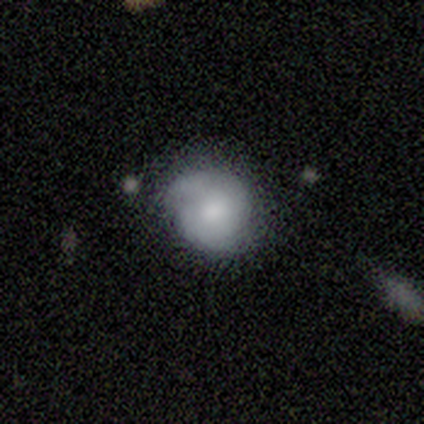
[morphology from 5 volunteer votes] Volunteers were most divided on "how rounded": round: 75%, in between: 25%, cigar-shaped: 0%. More confident: smooth or featured — smooth (80%); merging — minor disturbance (80%).